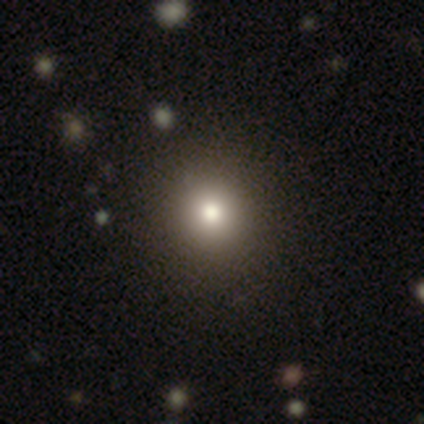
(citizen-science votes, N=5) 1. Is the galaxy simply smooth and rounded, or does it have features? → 80% smooth, 20% featured or disk, 0% star or artifact.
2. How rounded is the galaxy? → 100% round, 0% in between, 0% cigar-shaped.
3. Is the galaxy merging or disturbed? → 100% none, 0% minor disturbance, 0% major disturbance, 0% merger.